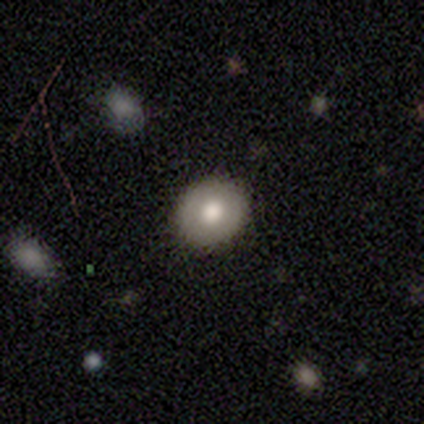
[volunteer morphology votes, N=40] This is likely a smooth galaxy (72%). How rounded: likely round (79%). Merging: clearly none (92%).